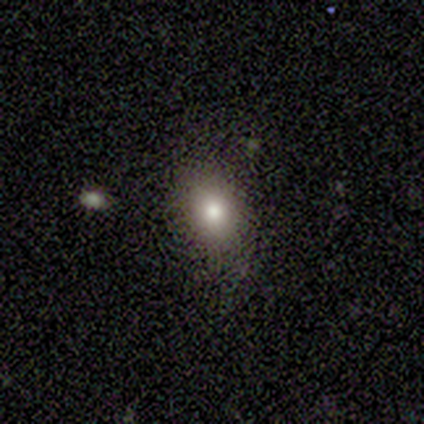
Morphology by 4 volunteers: This is likely a smooth galaxy (75%). How rounded: likely round (67%). Merging: clearly none (100%).